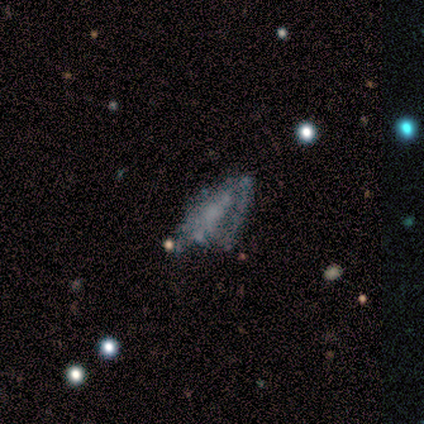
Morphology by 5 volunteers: smooth_or_featured: featured or disk (p=0.60) [alt: smooth p=0.20]
disk_edge_on: no (p=1.00)
bar: no (p=0.67) [alt: strong p=0.33]
has_spiral_arms: no (p=0.67) [alt: yes p=0.33]
bulge_size: none (p=1.00)
merging: none (p=0.50) [tied with: minor disturbance p=0.50]